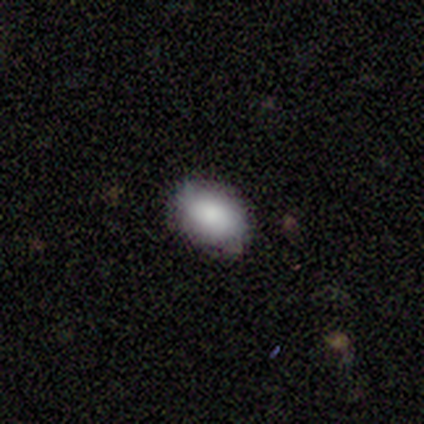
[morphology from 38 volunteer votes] A smooth galaxy with no disk features (79%) that is in between round and cigar-shaped (63%).

Vote fractions:
- Smooth or featured? smooth: 79% / featured or disk: 13% / star or artifact: 8%
- How rounded? in between: 63% / round: 27% / cigar-shaped: 10%
- Merging? none: 69% / minor disturbance: 20% / major disturbance: 11% / merger: 0%